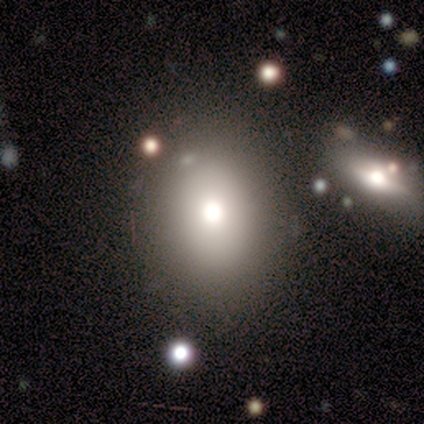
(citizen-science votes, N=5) smooth_or_featured: smooth (p=0.80) [alt: featured or disk p=0.20]
how_rounded: round (p=0.75) [alt: in between p=0.25]
merging: none (p=0.80) [alt: minor disturbance p=0.20]